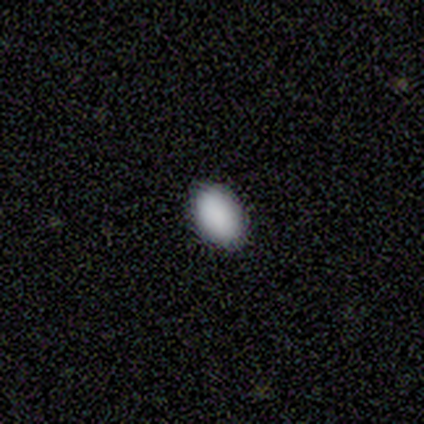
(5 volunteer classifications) Overall: smooth (100%). How rounded: in between (80%). Merging: none (80%).